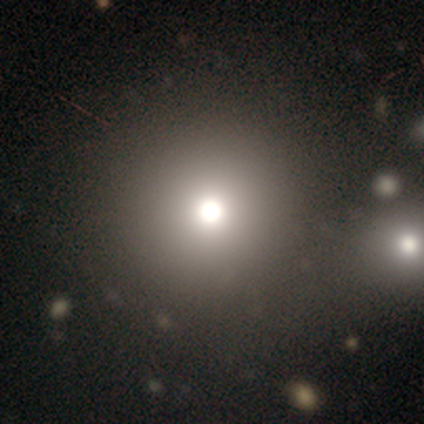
This appears to be a smooth galaxy with no disk features (40%, tied with star or artifact) that is round (100%). Merging: minor disturbance (67%).